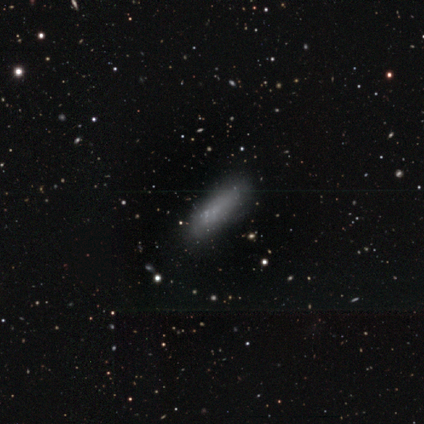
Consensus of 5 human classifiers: This is clearly a smooth galaxy (80%). How rounded: possibly in between (50%, tied with cigar-shaped). Merging: likely none (60%).